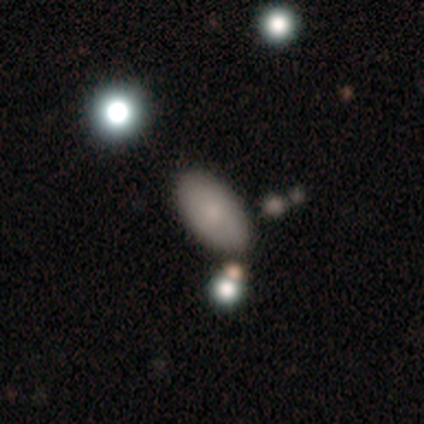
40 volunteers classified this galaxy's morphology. This is clearly a smooth galaxy (80%). How rounded: clearly in between (100%). Merging: likely none (71%).